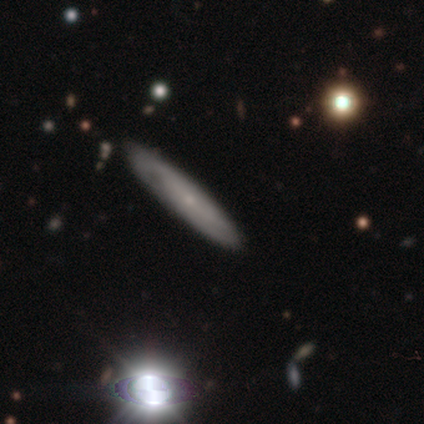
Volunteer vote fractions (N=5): smooth_or_featured: smooth (p=0.60) [alt: featured or disk p=0.40]
how_rounded: cigar-shaped (p=0.67) [alt: in between p=0.33]
merging: none (p=1.00)